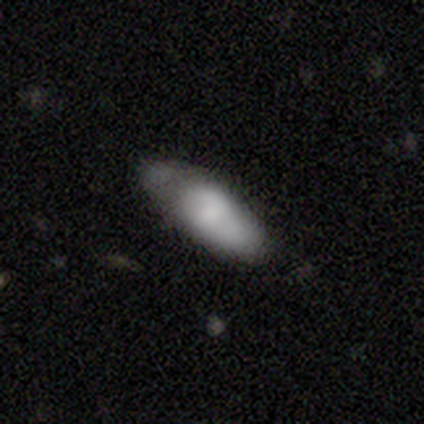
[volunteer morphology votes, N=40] smooth-or-featured: smooth: 70% | featured or disk: 30% | star or artifact: 0%
  how-rounded: in between: 86% | cigar-shaped: 14% | round: 0%
  merging: none: 55% | minor disturbance: 32% | major disturbance: 12% | merger: 0%